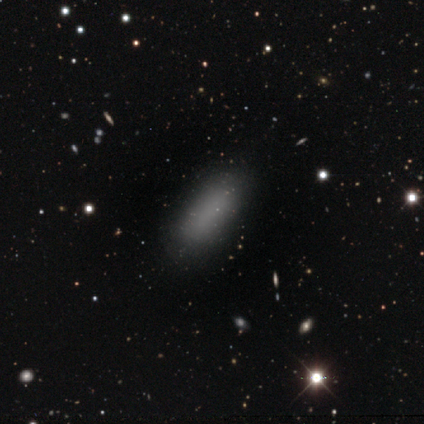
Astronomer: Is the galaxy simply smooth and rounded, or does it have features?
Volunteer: smooth — 100%.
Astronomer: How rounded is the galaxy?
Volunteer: in between — 100%.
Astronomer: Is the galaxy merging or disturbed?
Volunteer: none — 100%.